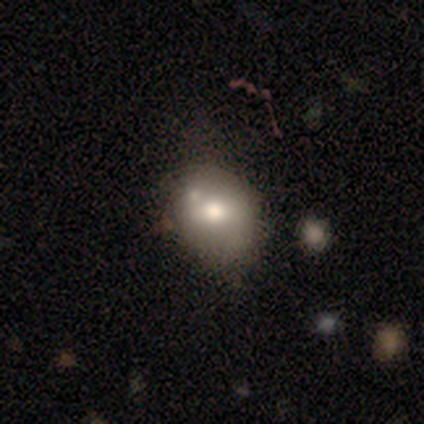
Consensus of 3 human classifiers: smooth_or_featured: smooth (p=1.00)
how_rounded: in between (p=0.67) [alt: round p=0.33]
merging: none (p=0.67) [alt: merger p=0.33]